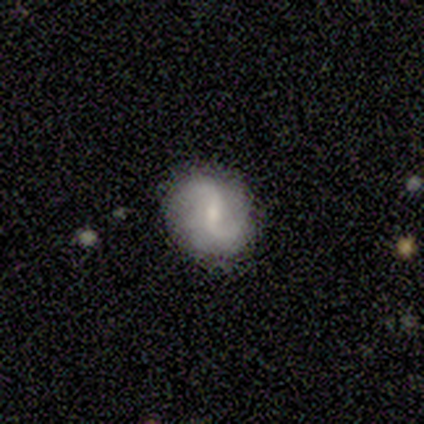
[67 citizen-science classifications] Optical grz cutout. It shows a featured or disk galaxy (76%) with a weak bar (61%), 2 (90%) loose (73%) spiral arms (94%) and a small central bulge (59%). Merging: none (81%).